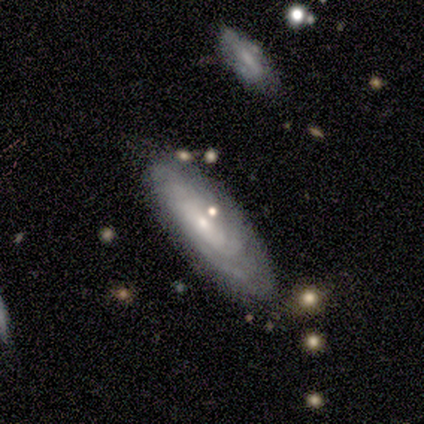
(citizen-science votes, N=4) Smooth or featured: featured or disk — 75% (star or artifact — 25%)
Edge-on disk: no — 67% (yes — 33%)
Bar: strong — 50% (tied with no — 50%)
Spiral arms: yes — 50% (tied with no — 50%)
Spiral winding: loose — 100%
Spiral arm count: can't tell — 100%
Bulge size: small — 100%
Merging: none — 67% (minor disturbance — 33%)